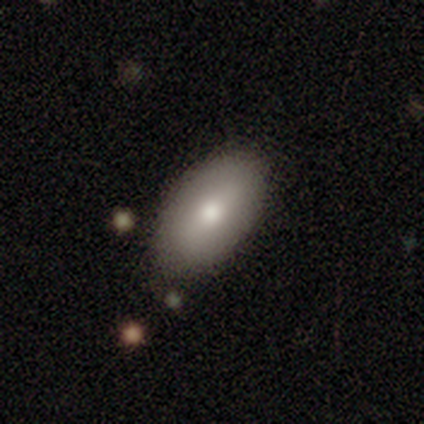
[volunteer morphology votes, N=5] Q: Smooth or featured?
A: featured or disk (60%); runner-up: smooth (40%)
Q: Edge-on disk?
A: no (67%); runner-up: yes (33%)
Q: Bar?
A: weak (50%); tied with: no (50%)
Q: Spiral arms?
A: no (100%)
Q: Bulge size?
A: moderate (100%)
Q: Merging?
A: none (80%); runner-up: major disturbance (20%)